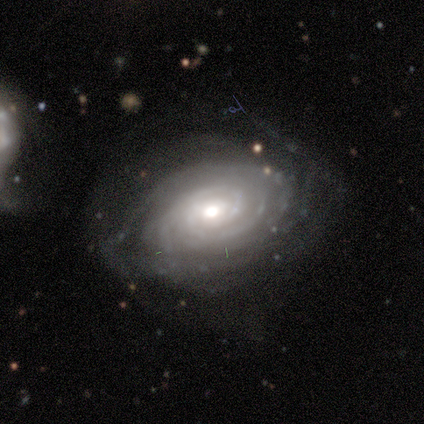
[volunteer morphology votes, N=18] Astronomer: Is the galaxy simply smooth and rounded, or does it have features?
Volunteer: featured or disk — 100%.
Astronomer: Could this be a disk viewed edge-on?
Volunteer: no — 94%.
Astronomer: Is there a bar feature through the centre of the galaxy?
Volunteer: no — 53% (runner-up: weak, 29%).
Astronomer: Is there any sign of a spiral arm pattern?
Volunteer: yes — 100%.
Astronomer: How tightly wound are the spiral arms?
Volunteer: tight — 82%.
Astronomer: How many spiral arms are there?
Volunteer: can't tell — 65%.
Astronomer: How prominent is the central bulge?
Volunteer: moderate — 59%.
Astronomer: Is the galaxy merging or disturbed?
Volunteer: none — 67%.